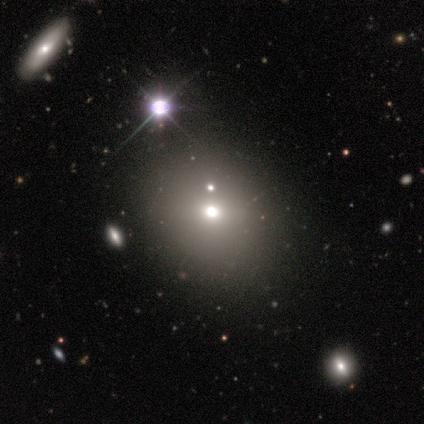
Q: Smooth or featured?
A: smooth (78%); runner-up: featured or disk (11%)
Q: How rounded?
A: round (86%); runner-up: in between (14%)
Q: Merging?
A: none (88%); runner-up: minor disturbance (12%)